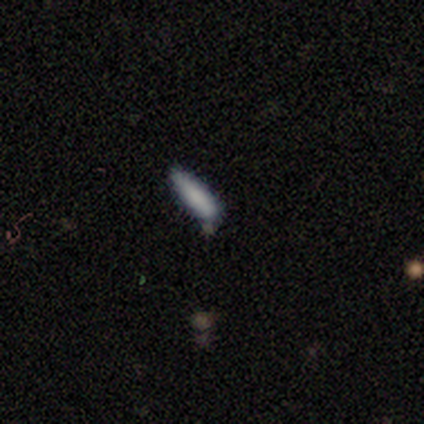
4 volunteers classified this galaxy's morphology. Smooth or featured? 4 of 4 (100%) said smooth. How rounded? 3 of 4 (75%) said cigar-shaped. Merging? 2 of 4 (50%, tied with minor disturbance) said none.